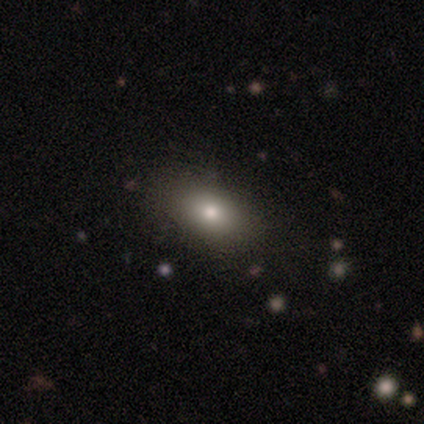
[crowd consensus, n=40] Smooth or featured: smooth — 85% (featured or disk — 10%)
How rounded: in between — 94% (round — 6%)
Merging: none — 76%